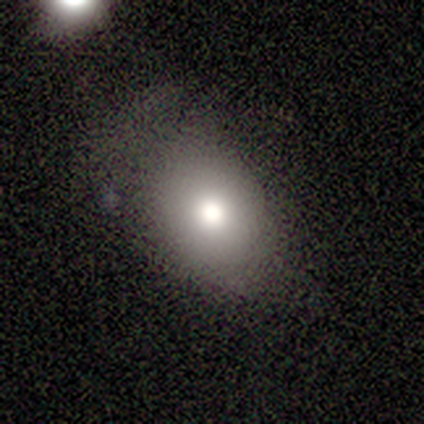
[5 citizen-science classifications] A smooth galaxy with no disk features (100%) that is in between round and cigar-shaped (80%).

Vote fractions:
- Smooth or featured? smooth: 100% / featured or disk: 0% / star or artifact: 0%
- How rounded? in between: 80% / round: 20% / cigar-shaped: 0%
- Merging? none: 60% / minor disturbance: 20% / major disturbance: 20% / merger: 0%